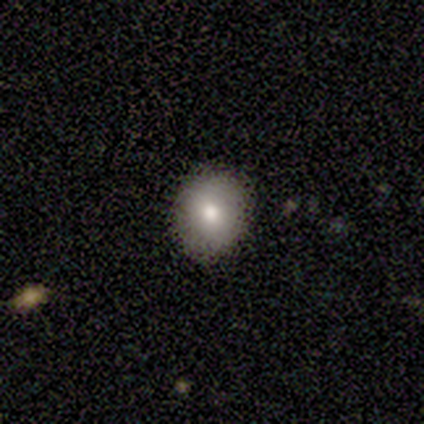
A smooth galaxy with no disk features (80%) that is round (75%).

Vote fractions:
- Smooth or featured? smooth: 80% / star or artifact: 20% / featured or disk: 0%
- How rounded? round: 75% / in between: 25% / cigar-shaped: 0%
- Merging? none: 100% / minor disturbance: 0% / major disturbance: 0% / merger: 0%